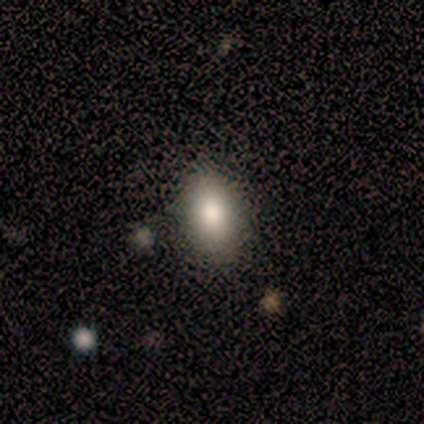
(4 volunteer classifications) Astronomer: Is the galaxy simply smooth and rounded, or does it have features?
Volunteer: smooth — 75%.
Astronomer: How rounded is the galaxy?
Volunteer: in between — 100%.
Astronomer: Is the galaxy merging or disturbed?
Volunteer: none — 75%.